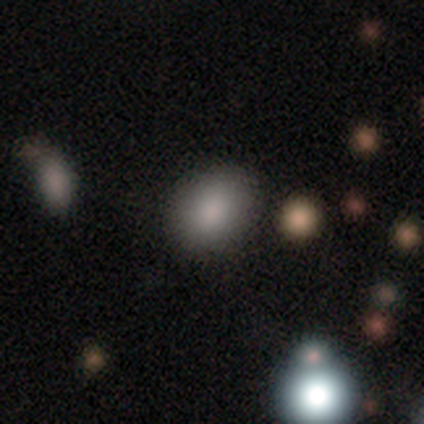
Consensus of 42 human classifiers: Smooth or featured: smooth — 71% (featured or disk — 17%)
How rounded: in between — 60% (round — 40%)
Merging: none — 89% (minor disturbance — 8%)